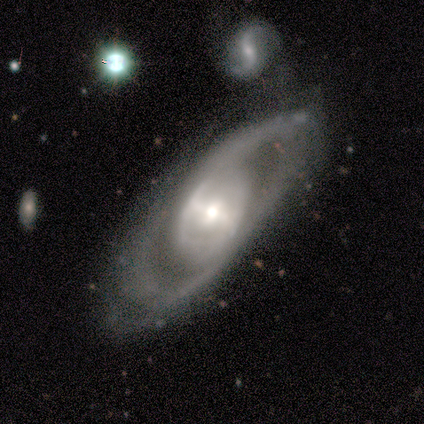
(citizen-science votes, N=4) Q: Smooth or featured?
A: featured or disk (100%)
Q: Edge-on disk?
A: no (75%); runner-up: yes (25%)
Q: Bar?
A: no (67%); runner-up: strong (33%)
Q: Spiral arms?
A: yes (100%)
Q: Spiral winding?
A: tight (33%); tied with: medium (33%); loose (33%)
Q: Spiral arm count?
A: 2 (67%); runner-up: can't tell (33%)
Q: Bulge size?
A: moderate (67%); runner-up: small (33%)
Q: Merging?
A: none (75%); runner-up: minor disturbance (25%)